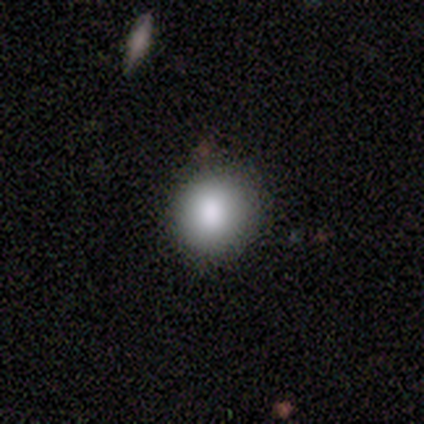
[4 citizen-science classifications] Morphology: type=smooth (75%); roundness=round (100%); merging=none (100%).